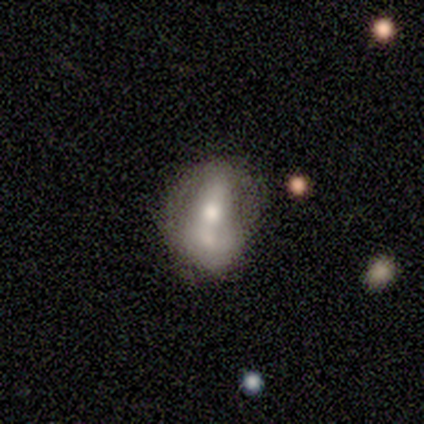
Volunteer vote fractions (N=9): A featured or disk galaxy (67%) with a strong bar (50%), 1 (33%, tied with 2 and can't tell) loose (67%) spiral arms (50%, tied with no) and a moderate central bulge (100%).

Vote fractions:
- Smooth or featured? featured or disk: 67% / smooth: 33% / star or artifact: 0%
- Edge-on disk? no: 100% / yes: 0%
- Bar? strong: 50% / weak: 33% / no: 17%
- Spiral arms? yes: 50% (tied) / no: 50% (tied)
- Spiral winding? loose: 67% / tight: 33% / medium: 0%
- Spiral arm count? 1: 33% (tied) / 2: 33% (tied) / can't tell: 33% (tied) / 3: 0% / 4: 0% / more than 4: 0%
- Bulge size? moderate: 100% / dominant: 0% / large: 0% / small: 0% / none: 0%
- Merging? merger: 56% / none: 44% / minor disturbance: 0% / major disturbance: 0%